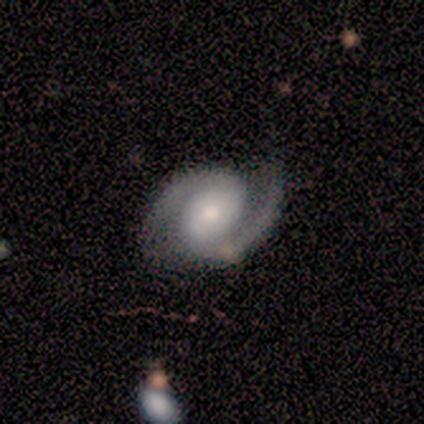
Smooth or featured? 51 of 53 (96%) said featured or disk. Edge-on disk? 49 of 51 (96%) said no. Bar? 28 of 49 (57%) said no. Spiral arms? 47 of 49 (96%) said yes. Spiral winding? 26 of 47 (55%) said medium. Spiral arm count? 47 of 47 (100%) said 2. Bulge size? 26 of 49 (53%) said moderate. Merging? 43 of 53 (81%) said none.